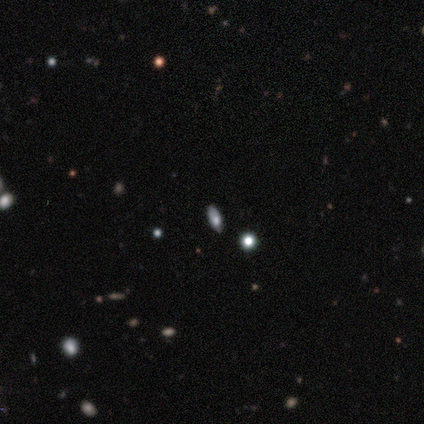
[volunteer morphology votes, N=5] Smooth or featured?
  - featured or disk: 40% * (tied)
  - star or artifact: 40% * (tied)
  - smooth: 20%
Edge-on disk?
  - yes: 50% * (tied)
  - no: 50% * (tied)
Edge-on bulge?
  - rounded: 100% *
  - boxy: 0%
  - none: 0%
Merging?
  - none: 67% *
  - major disturbance: 33%
  - minor disturbance: 0%
  - merger: 0%